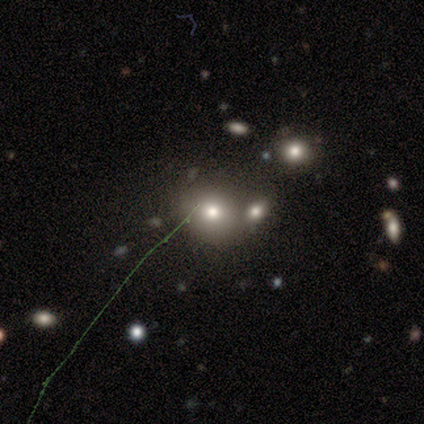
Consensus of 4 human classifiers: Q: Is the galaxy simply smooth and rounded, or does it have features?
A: smooth — 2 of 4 (50%).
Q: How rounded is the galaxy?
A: round — 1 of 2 (50%, tied with in between).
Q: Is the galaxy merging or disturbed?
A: none — 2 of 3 (67%).